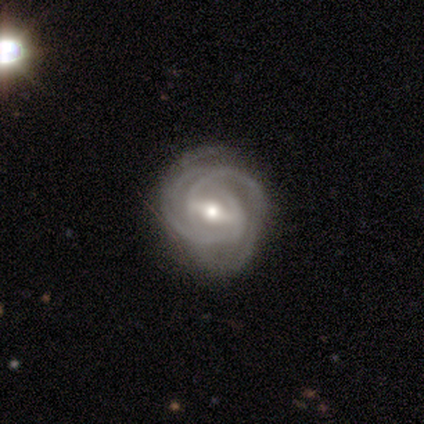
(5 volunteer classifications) A featured or disk galaxy (100%) with a strong bar (60%), 3 (40%, tied with can't tell) tight (60%) spiral arms (100%) and a moderate central bulge (40%, tied with small). Merging: minor disturbance (60%).